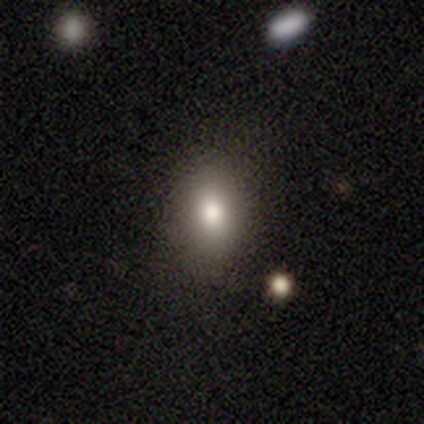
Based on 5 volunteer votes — smooth 80%, star or artifact 20%, featured or disk 0%. Down the decision tree: how rounded — in between (75%); merging — none (100%).